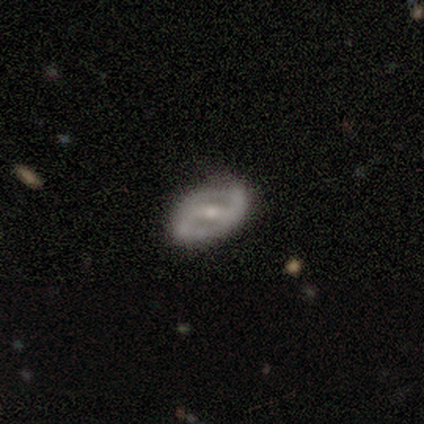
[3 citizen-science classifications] smooth-or-featured: featured or disk: 100% | smooth: 0% | star or artifact: 0%
  disk-edge-on: no: 100% | yes: 0%
    bar: strong: 67% | weak: 33% | no: 0%
    has-spiral-arms: no: 67% | yes: 33%
    bulge-size: moderate: 67% | small: 33% | dominant: 0% | large: 0% | none: 0%
  merging: none: 67% | minor disturbance: 33% | major disturbance: 0% | merger: 0%